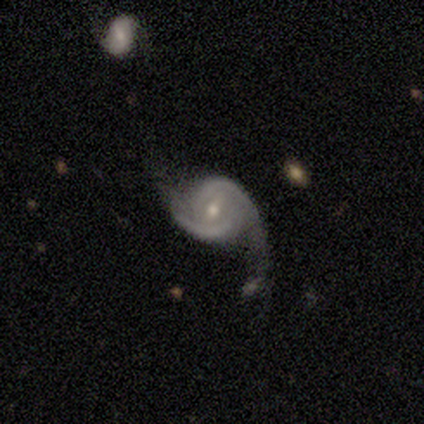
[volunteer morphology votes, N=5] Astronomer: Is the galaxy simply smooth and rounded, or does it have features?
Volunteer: featured or disk — 60% (runner-up: smooth, 40%).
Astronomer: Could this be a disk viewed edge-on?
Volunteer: no — 67%.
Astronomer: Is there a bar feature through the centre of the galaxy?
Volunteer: weak — 100%.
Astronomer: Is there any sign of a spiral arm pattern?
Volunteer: yes — 100%.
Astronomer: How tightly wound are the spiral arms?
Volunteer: tight — 50%, tied with medium at 50%.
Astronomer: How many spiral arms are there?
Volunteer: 2 — 100%.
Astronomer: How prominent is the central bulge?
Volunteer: moderate — 50%, tied with small at 50%.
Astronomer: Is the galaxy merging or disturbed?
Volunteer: none — 60%.